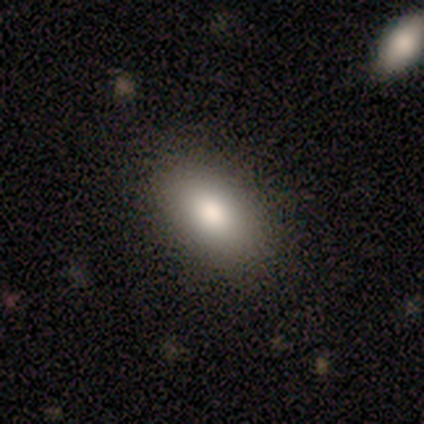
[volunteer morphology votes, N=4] Smooth or featured?
  - smooth: 100% *
  - featured or disk: 0%
  - star or artifact: 0%
How rounded?
  - in between: 100% *
  - round: 0%
  - cigar-shaped: 0%
Merging?
  - none: 100% *
  - minor disturbance: 0%
  - major disturbance: 0%
  - merger: 0%